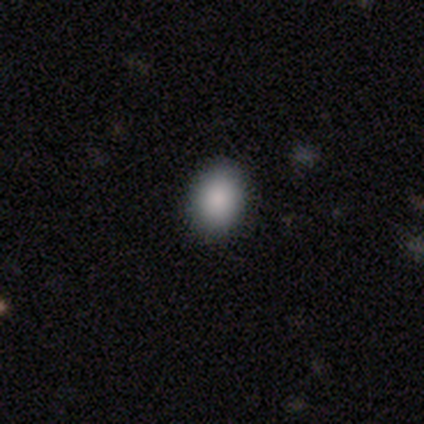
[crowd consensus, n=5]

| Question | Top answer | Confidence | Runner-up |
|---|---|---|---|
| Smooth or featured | smooth | 100% | — |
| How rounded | in between | 80% | round (20%) |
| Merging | none | 80% | minor disturbance (20%) |